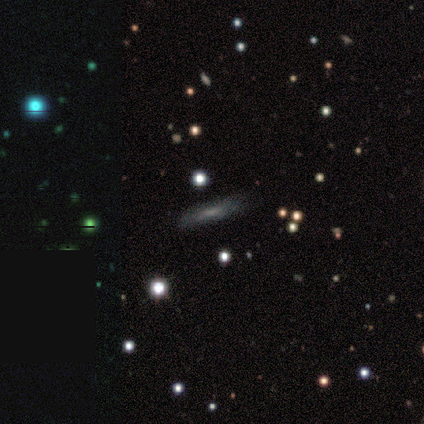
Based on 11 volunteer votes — Smooth or featured?
  - smooth: 64% *
  - featured or disk: 36%
  - star or artifact: 0%
How rounded?
  - cigar-shaped: 57% *
  - in between: 43%
  - round: 0%
Merging?
  - none: 73% *
  - minor disturbance: 18%
  - merger: 9%
  - major disturbance: 0%